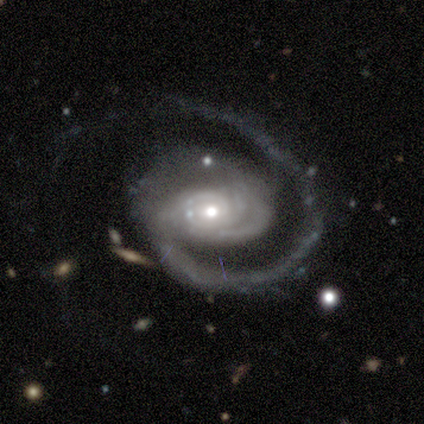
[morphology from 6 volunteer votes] A featured or disk galaxy (100%) with no bar (83%), 2 (50%) tight (50%, tied with medium) spiral arms (100%) and a small central bulge (67%). Merging: none (50%).